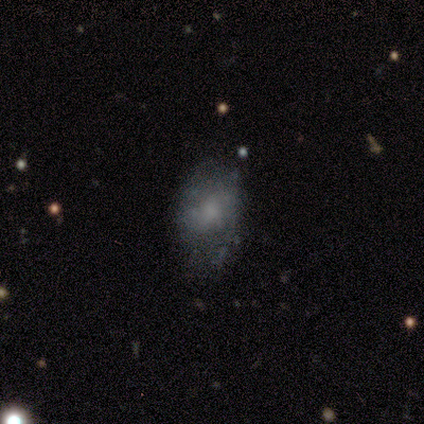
A star or artifact, not a galaxy (67%).